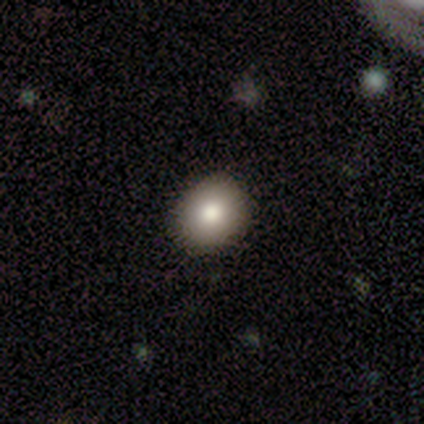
A smooth galaxy with no disk features (100%) that is round (80%).

Vote fractions:
- Smooth or featured? smooth: 100% / featured or disk: 0% / star or artifact: 0%
- How rounded? round: 80% / in between: 20% / cigar-shaped: 0%
- Merging? none: 80% / minor disturbance: 20% / major disturbance: 0% / merger: 0%